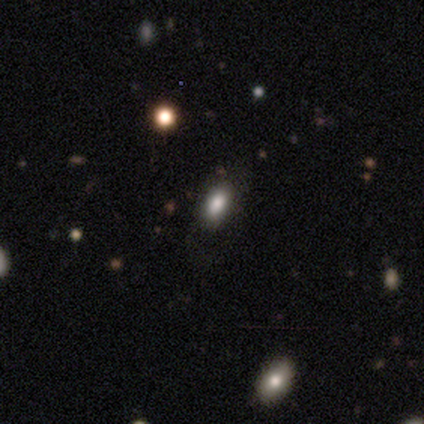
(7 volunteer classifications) A smooth galaxy with no disk features (57%) that is in between round and cigar-shaped (100%).

Vote fractions:
- Smooth or featured? smooth: 57% / star or artifact: 43% / featured or disk: 0%
- How rounded? in between: 100% / round: 0% / cigar-shaped: 0%
- Merging? none: 75% / minor disturbance: 25% / major disturbance: 0% / merger: 0%